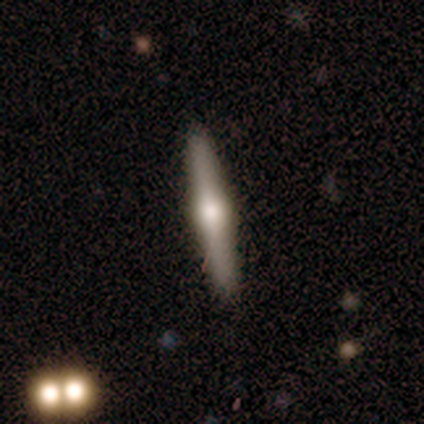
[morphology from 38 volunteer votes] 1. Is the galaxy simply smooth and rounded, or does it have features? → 74% featured or disk, 21% smooth, 5% star or artifact.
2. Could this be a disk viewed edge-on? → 96% yes, 4% no.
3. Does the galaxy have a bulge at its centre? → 96% rounded, 4% boxy, 0% none.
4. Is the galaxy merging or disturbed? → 92% none, 8% minor disturbance, 0% major disturbance, 0% merger.